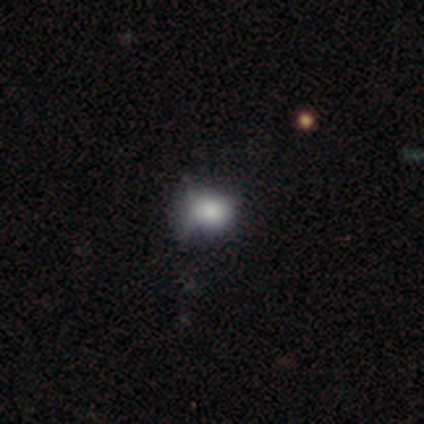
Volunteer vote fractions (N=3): Smooth or featured?
  - smooth: 100% *
  - featured or disk: 0%
  - star or artifact: 0%
How rounded?
  - round: 67% *
  - in between: 33%
  - cigar-shaped: 0%
Merging?
  - minor disturbance: 67% *
  - none: 33%
  - major disturbance: 0%
  - merger: 0%